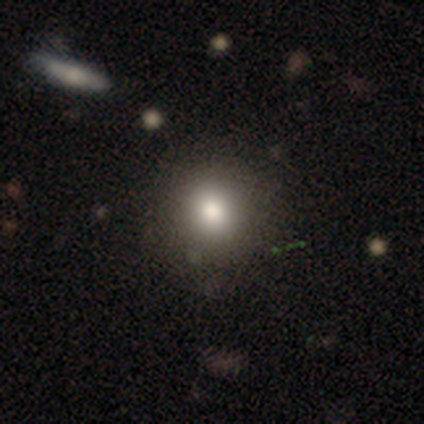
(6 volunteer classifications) Smooth or featured?
  - smooth: 100% *
  - featured or disk: 0%
  - star or artifact: 0%
How rounded?
  - round: 83% *
  - in between: 17%
  - cigar-shaped: 0%
Merging?
  - none: 100% *
  - minor disturbance: 0%
  - major disturbance: 0%
  - merger: 0%